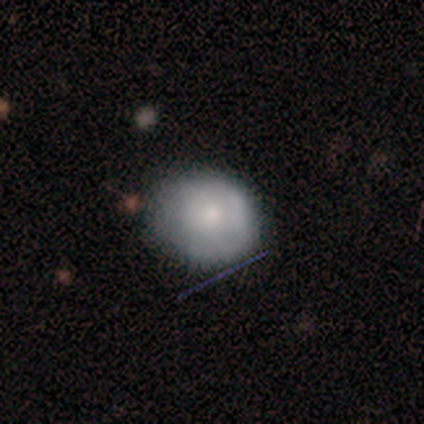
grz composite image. It shows a smooth galaxy with no disk features (60%) that is round (67%). Merging: none (60%).